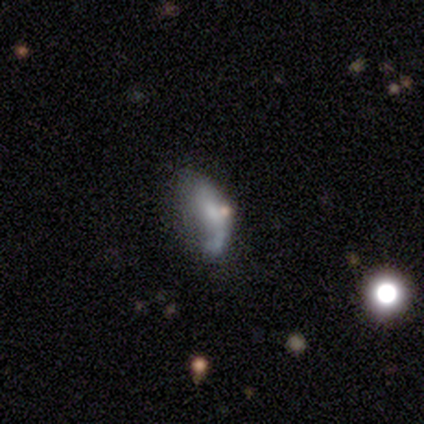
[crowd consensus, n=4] smooth-or-featured: featured or disk: 75% | smooth: 25% | star or artifact: 0%
  disk-edge-on: no: 100% | yes: 0%
    bar: no: 100% | strong: 0% | weak: 0%
    has-spiral-arms: yes: 67% | no: 33%
      spiral-winding: tight: 50% (tied) | loose: 50% (tied) | medium: 0%
      spiral-arm-count: 1: 50% (tied) | can't tell: 50% (tied) | 2: 0% | 3: 0% | 4: 0% | more than 4: 0%
    bulge-size: small: 67% | none: 33% | dominant: 0% | large: 0% | moderate: 0%
  merging: major disturbance: 75% | merger: 25% | none: 0% | minor disturbance: 0%